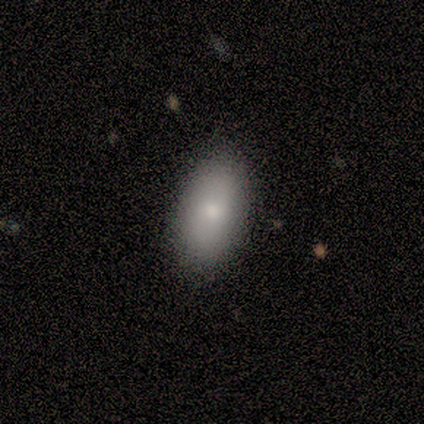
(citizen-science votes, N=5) A smooth galaxy with no disk features (80%) that is in between round and cigar-shaped (75%). Merging: none (100%).